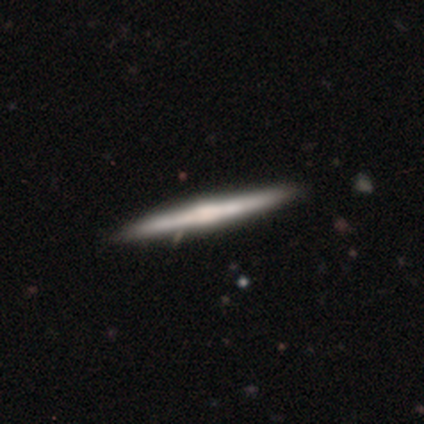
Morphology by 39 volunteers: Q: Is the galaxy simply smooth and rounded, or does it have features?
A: featured or disk — 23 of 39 (59%).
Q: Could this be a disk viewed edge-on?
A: yes — 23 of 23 (100%).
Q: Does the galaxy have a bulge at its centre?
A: rounded — 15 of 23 (65%).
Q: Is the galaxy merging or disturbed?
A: none — 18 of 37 (49%).